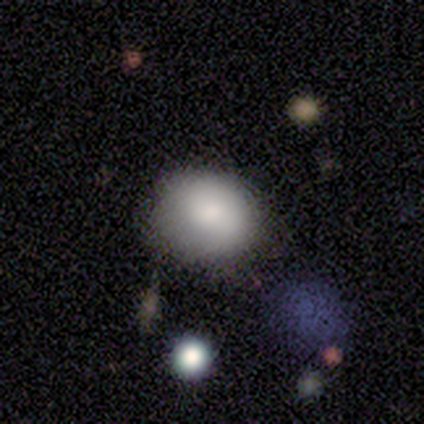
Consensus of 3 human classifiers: A smooth galaxy with no disk features (67%) that is round (100%).

Vote fractions:
- Smooth or featured? smooth: 67% / star or artifact: 33% / featured or disk: 0%
- How rounded? round: 100% / in between: 0% / cigar-shaped: 0%
- Merging? none: 50% (tied) / major disturbance: 50% (tied) / minor disturbance: 0% / merger: 0%